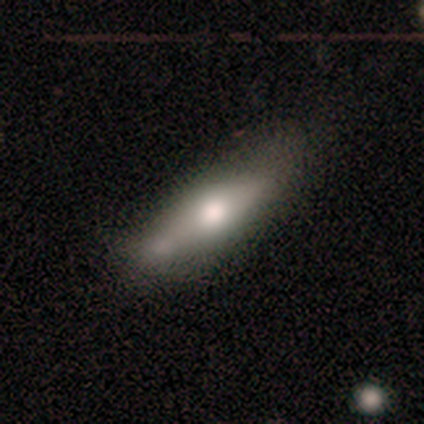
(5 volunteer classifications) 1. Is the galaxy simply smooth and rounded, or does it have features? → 80% smooth, 20% featured or disk, 0% star or artifact.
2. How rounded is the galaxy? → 100% cigar-shaped, 0% round, 0% in between.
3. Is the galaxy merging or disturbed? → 40% none (tied), 40% merger (tied), 20% minor disturbance, 0% major disturbance.